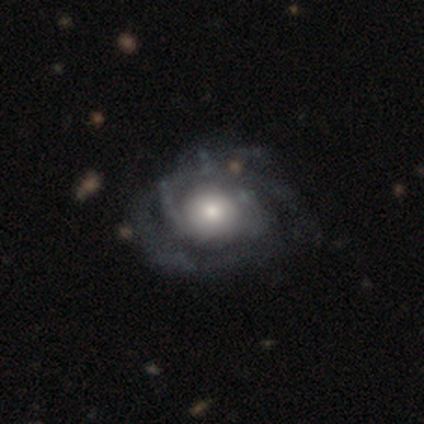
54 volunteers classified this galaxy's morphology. smooth_or_featured: featured or disk (p=0.85) [alt: smooth p=0.11]
disk_edge_on: no (p=1.00)
bar: no (p=0.93) [alt: weak p=0.04]
has_spiral_arms: yes (p=0.93) [alt: no p=0.07]
spiral_winding: tight (p=0.65) [alt: medium p=0.28]
spiral_arm_count: 3 (p=0.35) [alt: 2 p=0.30]
bulge_size: large (p=0.48) [alt: moderate p=0.43]
merging: none (p=0.48) [alt: minor disturbance p=0.31]